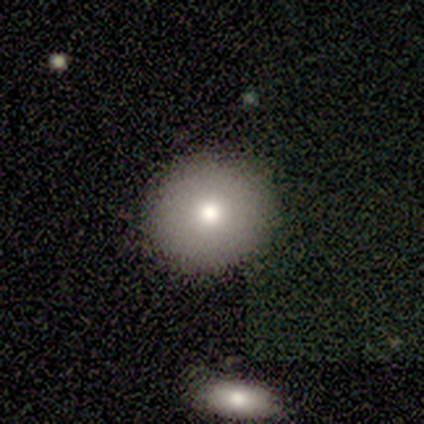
Smooth or featured?
  - smooth: 100% *
  - featured or disk: 0%
  - star or artifact: 0%
How rounded?
  - round: 100% *
  - in between: 0%
  - cigar-shaped: 0%
Merging?
  - none: 100% *
  - minor disturbance: 0%
  - major disturbance: 0%
  - merger: 0%